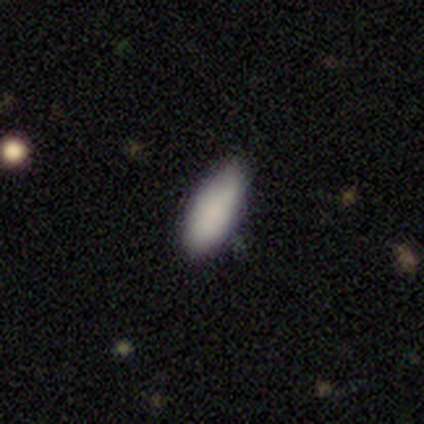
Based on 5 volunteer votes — Q: Smooth or featured?
A: smooth (100%)
Q: How rounded?
A: in between (100%)
Q: Merging?
A: none (80%); runner-up: minor disturbance (20%)